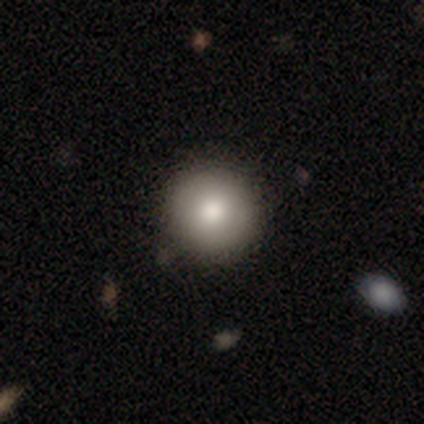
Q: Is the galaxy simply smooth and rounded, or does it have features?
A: smooth — 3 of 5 (60%).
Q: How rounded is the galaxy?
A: round — 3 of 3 (100%).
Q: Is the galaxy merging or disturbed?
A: none — 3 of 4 (75%).